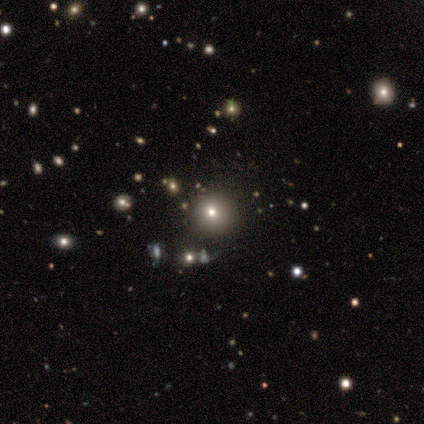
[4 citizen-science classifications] smooth 75%, featured or disk 25%, star or artifact 0%. Down the decision tree: how rounded — round (100%); merging — none (75%).